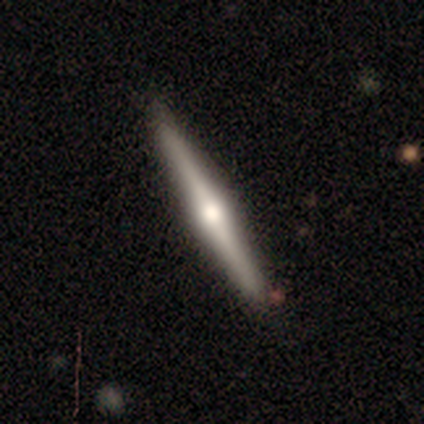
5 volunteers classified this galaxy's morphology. Overall: featured or disk (80%). Edge-on disk: yes (100%). Edge-on bulge: rounded (100%). Merging: none (100%).